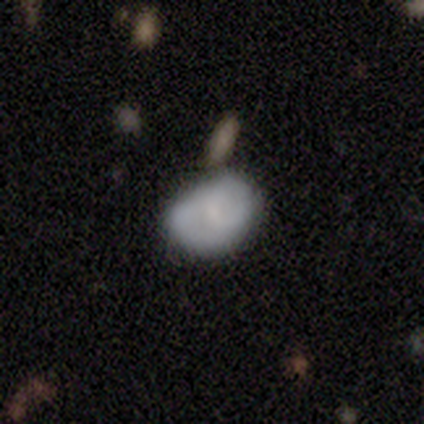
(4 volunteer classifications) smooth-or-featured: smooth: 75% | featured or disk: 25% | star or artifact: 0%
  how-rounded: in between: 67% | round: 33% | cigar-shaped: 0%
  merging: none: 75% | minor disturbance: 25% | major disturbance: 0% | merger: 0%